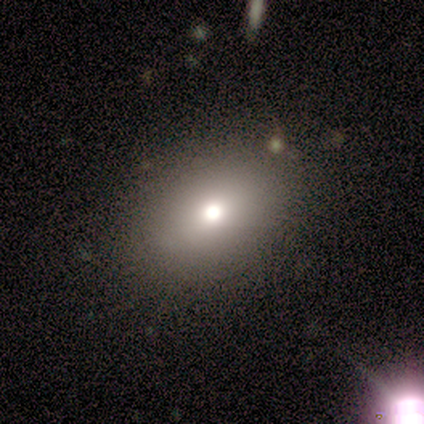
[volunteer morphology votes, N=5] This is likely a smooth galaxy (60%). How rounded: clearly in between (100%). Merging: likely none (75%).